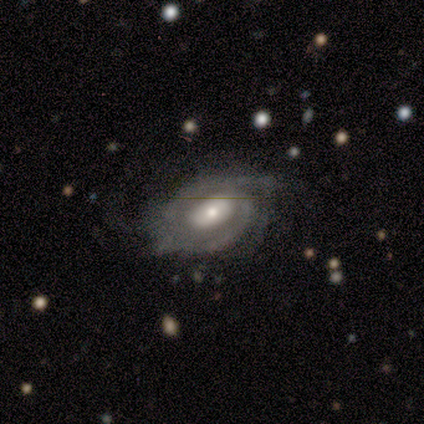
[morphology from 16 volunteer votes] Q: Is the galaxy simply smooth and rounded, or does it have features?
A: featured or disk — 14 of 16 (88%).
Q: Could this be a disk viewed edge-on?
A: no — 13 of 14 (93%).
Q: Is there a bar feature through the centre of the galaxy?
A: weak — 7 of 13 (54%).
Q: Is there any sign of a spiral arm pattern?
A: yes — 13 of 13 (100%).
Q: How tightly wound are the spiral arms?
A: tight — 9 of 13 (69%).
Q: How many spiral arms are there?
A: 2 — 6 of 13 (46%).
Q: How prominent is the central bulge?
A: moderate — 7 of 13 (54%).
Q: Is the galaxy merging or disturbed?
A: none — 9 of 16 (56%).